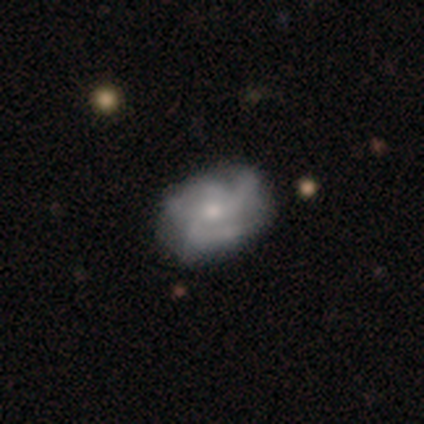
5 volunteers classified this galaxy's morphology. Volunteers were most divided on "spiral winding" (2-way tie): medium: 50%, loose: 50%, tight: 0%. More confident: smooth or featured — featured or disk (100%); edge-on disk — no (100%); merging — none (100%); bar — no (80%); spiral arms — yes (80%); bulge size — small (60%); spiral arm count — 3 (50%).